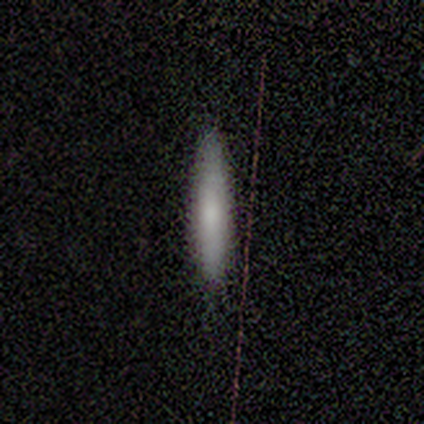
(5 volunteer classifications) smooth 60%, featured or disk 20%, star or artifact 20%. Down the decision tree: how rounded — cigar-shaped (100%); merging — none (100%).